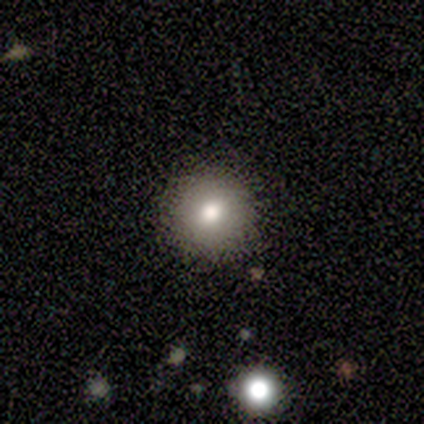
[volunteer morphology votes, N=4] Smooth or featured?
  - smooth: 75% *
  - star or artifact: 25%
  - featured or disk: 0%
How rounded?
  - round: 100% *
  - in between: 0%
  - cigar-shaped: 0%
Merging?
  - none: 100% *
  - minor disturbance: 0%
  - major disturbance: 0%
  - merger: 0%